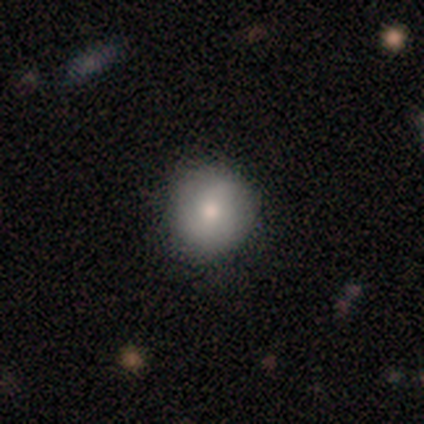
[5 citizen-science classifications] smooth 100%, featured or disk 0%, star or artifact 0%. Down the decision tree: how rounded — round (100%); merging — none (100%).